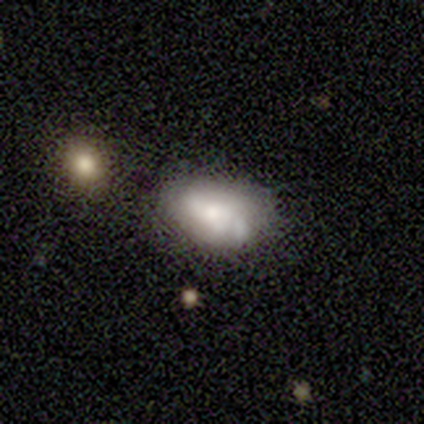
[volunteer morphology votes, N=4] featured or disk 75%, smooth 25%, star or artifact 0%. Down the decision tree: edge-on disk — no (100%); bar — strong (33%, tied with weak and no); spiral arms — no (67%); bulge size — moderate (33%, tied with small and none); merging — none (50%, tied with minor disturbance).